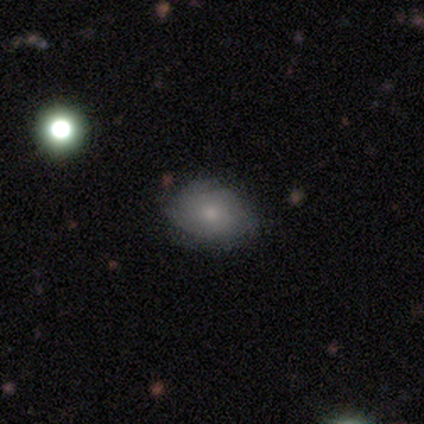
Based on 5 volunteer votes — Smooth or featured: smooth — 80% (featured or disk — 20%)
How rounded: in between — 75% (round — 25%)
Merging: none — 100%